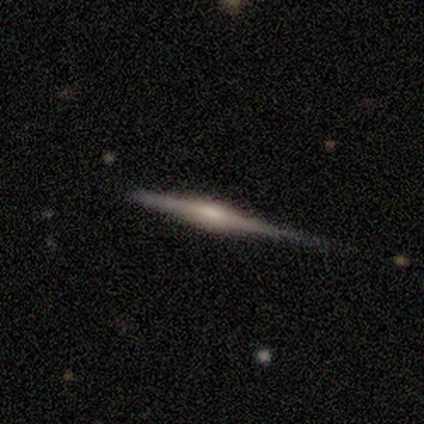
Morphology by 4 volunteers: type=featured or disk (75%); edge-on=yes (100%); edge-on bulge=rounded (100%); merging=none (75%).